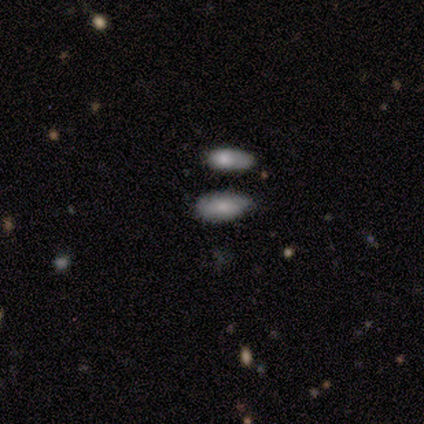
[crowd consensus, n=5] This is clearly a smooth galaxy (80%). How rounded: likely in between (75%). Merging: clearly none (80%).